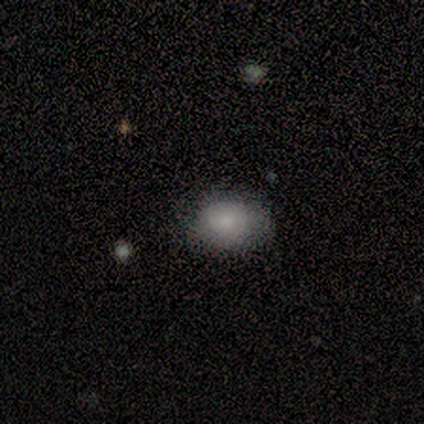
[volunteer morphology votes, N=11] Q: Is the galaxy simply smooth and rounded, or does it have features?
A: smooth — 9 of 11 (82%).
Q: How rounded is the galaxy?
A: in between — 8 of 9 (89%).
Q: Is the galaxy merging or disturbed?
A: none — 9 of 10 (90%).